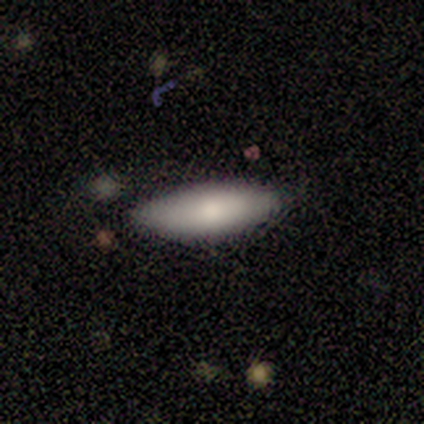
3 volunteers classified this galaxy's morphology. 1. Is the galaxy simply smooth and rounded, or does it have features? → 100% smooth, 0% featured or disk, 0% star or artifact.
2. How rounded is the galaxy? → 100% in between, 0% round, 0% cigar-shaped.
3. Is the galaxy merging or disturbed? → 100% none, 0% minor disturbance, 0% major disturbance, 0% merger.